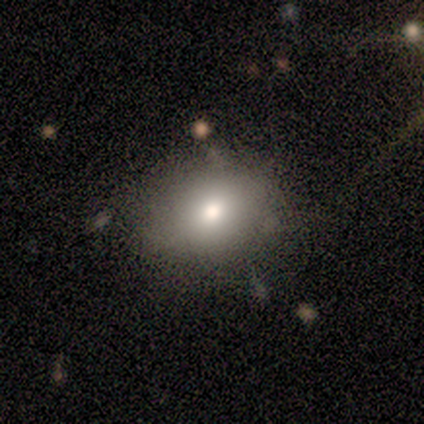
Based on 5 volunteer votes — Smooth or featured? smooth (100%)
How rounded? in between (60%)
Merging? none (60%)